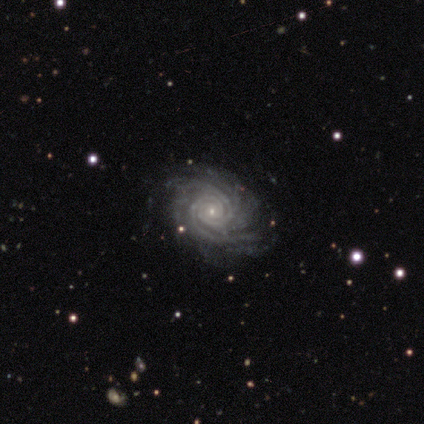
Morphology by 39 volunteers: Smooth or featured? 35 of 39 (90%) said featured or disk. Edge-on disk? 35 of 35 (100%) said no. Bar? 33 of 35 (94%) said no. Spiral arms? 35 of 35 (100%) said yes. Spiral winding? 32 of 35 (91%) said tight. Spiral arm count? 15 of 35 (43%) said more than 4. Bulge size? 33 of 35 (94%) said small. Merging? 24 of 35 (69%) said none.